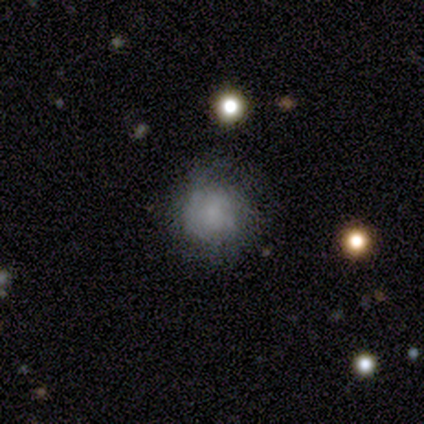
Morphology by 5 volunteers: Volunteers were most divided on "smooth or featured": smooth: 80%, featured or disk: 20%, star or artifact: 0%. More confident: how rounded — round (100%); merging — none (80%).